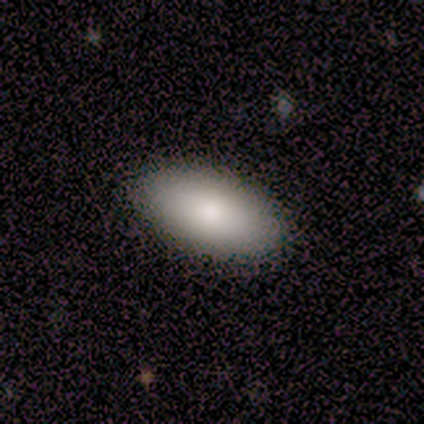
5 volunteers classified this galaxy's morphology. Smooth or featured? smooth (80%)
How rounded? in between (100%)
Merging? none (80%)